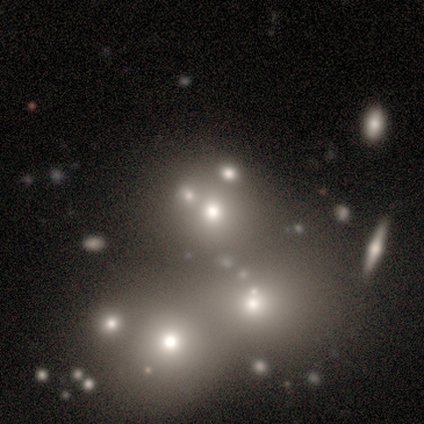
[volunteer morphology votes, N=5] type=smooth (40%, tied with star or artifact); roundness=round (100%); merging=none (100%).